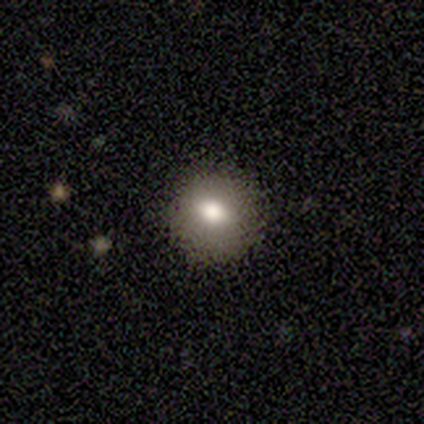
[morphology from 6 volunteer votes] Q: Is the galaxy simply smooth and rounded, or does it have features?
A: smooth — 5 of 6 (83%).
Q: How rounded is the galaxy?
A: round — 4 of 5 (80%).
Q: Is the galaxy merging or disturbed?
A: none — 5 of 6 (83%).